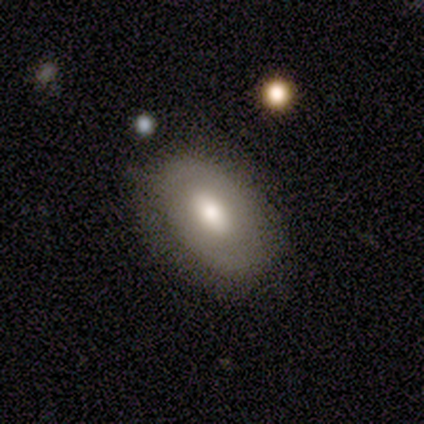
Smooth or featured?
  - smooth: 75% *
  - featured or disk: 25%
  - star or artifact: 0%
How rounded?
  - in between: 100% *
  - round: 0%
  - cigar-shaped: 0%
Merging?
  - none: 100% *
  - minor disturbance: 0%
  - major disturbance: 0%
  - merger: 0%